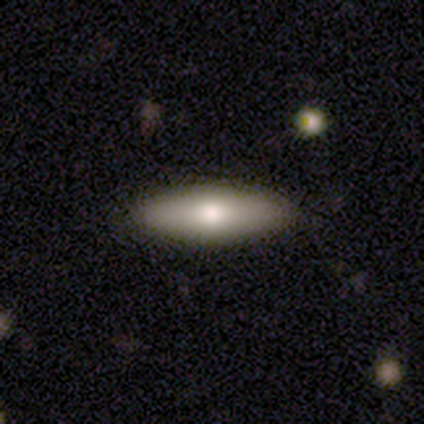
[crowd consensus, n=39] This is likely a smooth galaxy (62%). How rounded: possibly in between (58%). Merging: clearly none (89%).